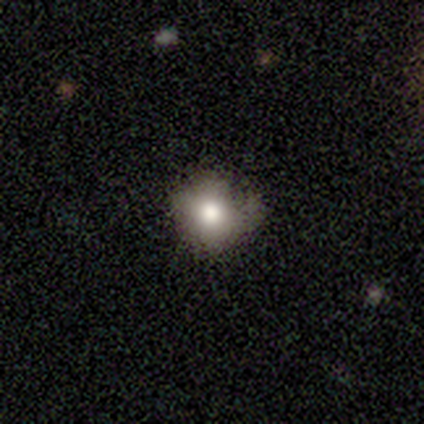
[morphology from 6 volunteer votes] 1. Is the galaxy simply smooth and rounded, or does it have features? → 50% star or artifact, 33% smooth, 17% featured or disk.